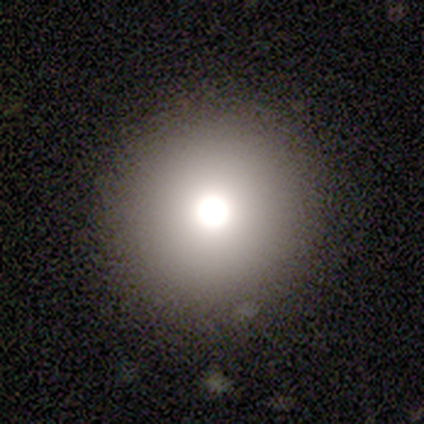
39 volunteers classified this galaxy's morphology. Q: Smooth or featured?
A: smooth (74%); runner-up: featured or disk (13%)
Q: How rounded?
A: round (93%); runner-up: in between (7%)
Q: Merging?
A: none (94%); runner-up: minor disturbance (6%)